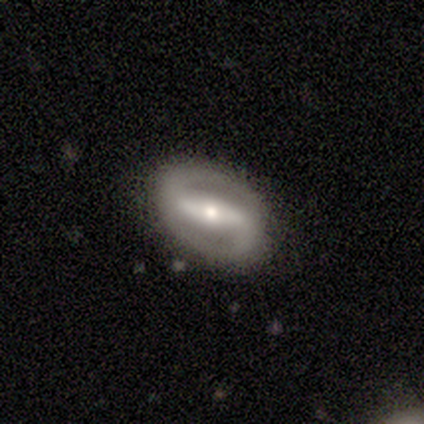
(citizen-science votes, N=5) Smooth or featured: featured or disk — 60% (smooth — 20%)
Edge-on disk: no — 67% (yes — 33%)
Bar: strong — 100%
Spiral arms: yes — 100%
Spiral winding: medium — 100%
Spiral arm count: 2 — 100%
Bulge size: moderate — 100%
Merging: none — 100%